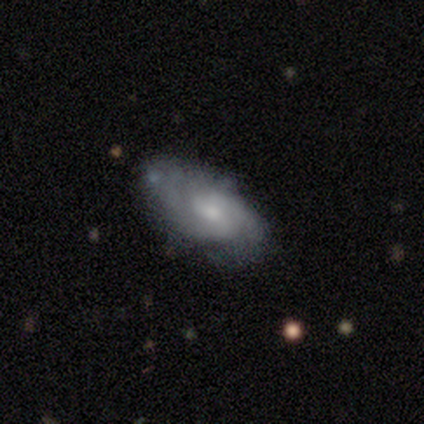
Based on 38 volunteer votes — Smooth or featured? 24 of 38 (63%) said featured or disk. Edge-on disk? 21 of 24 (88%) said no. Bar? 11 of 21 (52%) said no. Spiral arms? 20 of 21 (95%) said yes. Spiral winding? 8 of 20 (40%) said medium. Spiral arm count? 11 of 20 (55%) said 2. Bulge size? 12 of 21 (57%) said small. Merging? 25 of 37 (68%) said none.